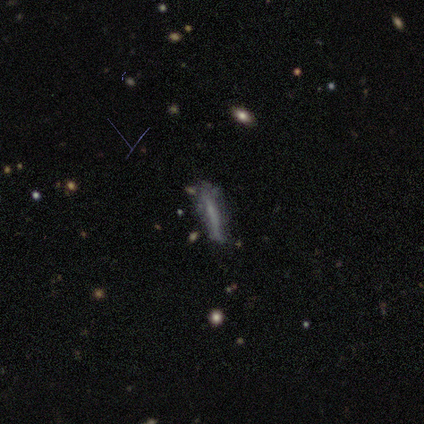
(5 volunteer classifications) Smooth or featured?
  - smooth: 60% *
  - featured or disk: 40%
  - star or artifact: 0%
How rounded?
  - cigar-shaped: 100% *
  - round: 0%
  - in between: 0%
Merging?
  - none: 60% *
  - minor disturbance: 40%
  - major disturbance: 0%
  - merger: 0%